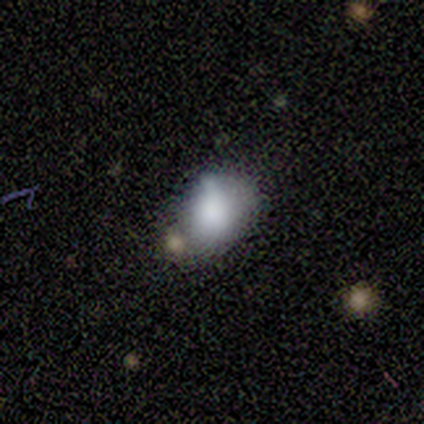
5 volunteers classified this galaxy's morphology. Overall: smooth (80%). How rounded: round (75%). Merging: none (25%, tied with minor disturbance, major disturbance and merger).